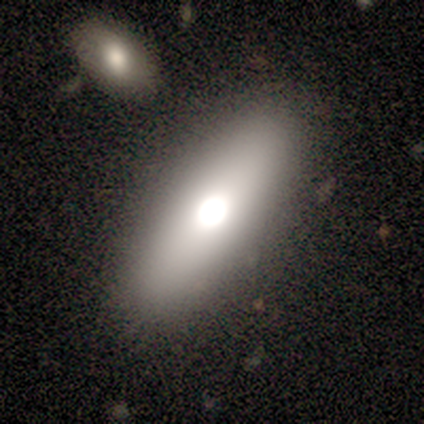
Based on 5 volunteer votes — Smooth or featured? featured or disk (60%)
Edge-on disk? no (67%)
Bar? no (100%)
Spiral arms? no (100%)
Bulge size? large (50%, tied with moderate)
Merging? none (100%)